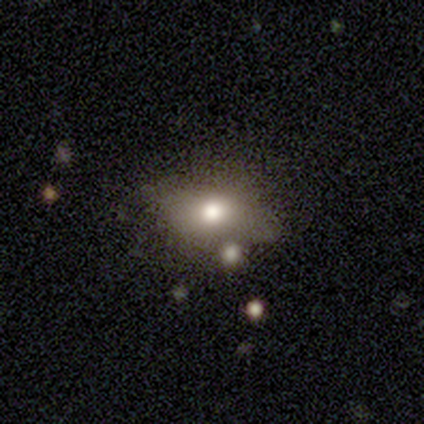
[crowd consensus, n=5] Morphology: type=featured or disk (60%); edge-on=no (67%); bar=no (100%); spiral arms=no (100%); bulge=large (50%, tied with moderate); merging=none (40%, tied with merger).